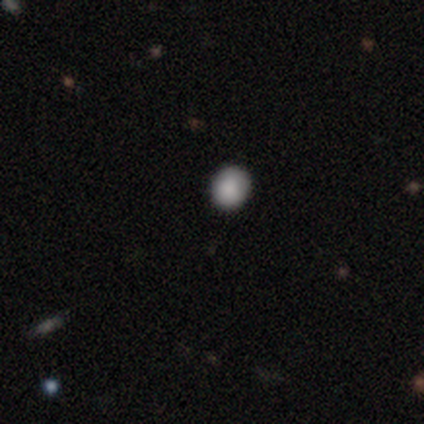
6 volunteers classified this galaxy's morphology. Overall: smooth (100%). How rounded: round (67%; in between 33%). Merging: none (100%).